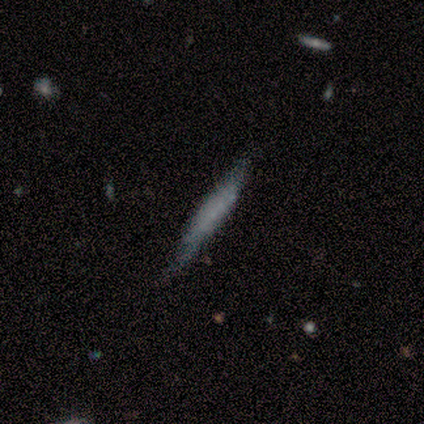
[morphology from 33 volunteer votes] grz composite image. It shows a smooth galaxy with no disk features (61%) that is cigar-shaped (95%). Merging: none (75%).